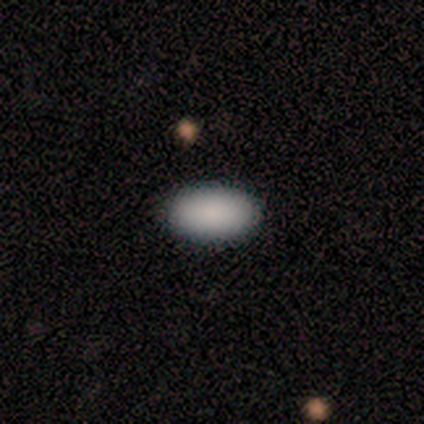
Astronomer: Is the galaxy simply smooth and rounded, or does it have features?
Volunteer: smooth — 60% (runner-up: star or artifact, 40%).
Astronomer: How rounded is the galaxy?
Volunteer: in between — 100%.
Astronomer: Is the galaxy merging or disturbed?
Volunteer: none — 100%.